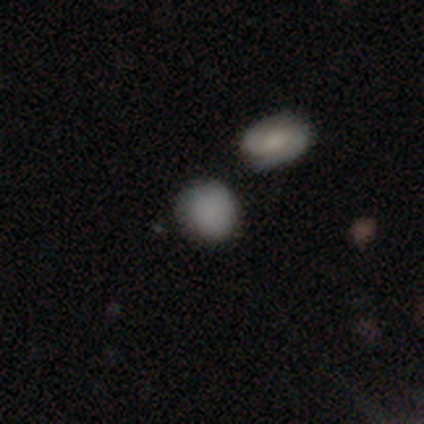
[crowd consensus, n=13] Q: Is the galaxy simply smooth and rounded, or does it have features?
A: smooth — 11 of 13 (85%).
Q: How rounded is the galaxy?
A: in between — 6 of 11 (55%).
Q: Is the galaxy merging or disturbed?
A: none — 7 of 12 (58%).